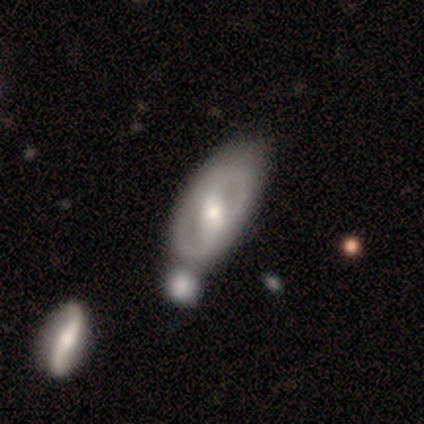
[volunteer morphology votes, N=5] Volunteers were most divided on "bar" (2-way tie): strong: 40%, weak: 40%, no: 20%. More confident: smooth or featured — featured or disk (100%); edge-on disk — no (100%); bulge size — moderate (100%); spiral arms — no (60%); merging — none (60%).